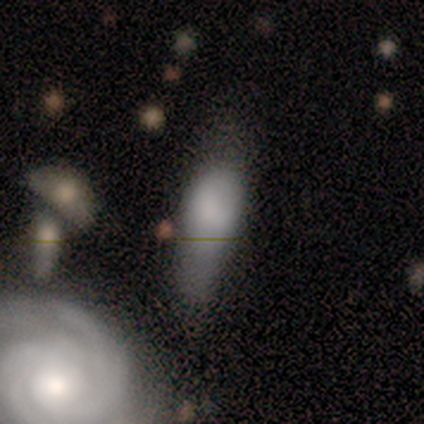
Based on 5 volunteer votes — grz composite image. It shows a smooth galaxy with no disk features (40%, tied with featured or disk) that is in between round and cigar-shaped (100%). Merging: major disturbance (50%).